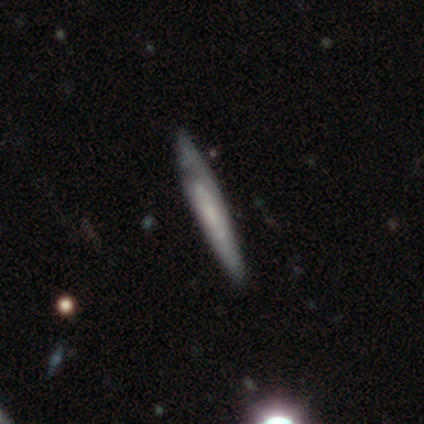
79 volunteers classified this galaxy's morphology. type=featured or disk (53%); edge-on=yes (71%); edge-on bulge=none (70%); merging=none (36%).